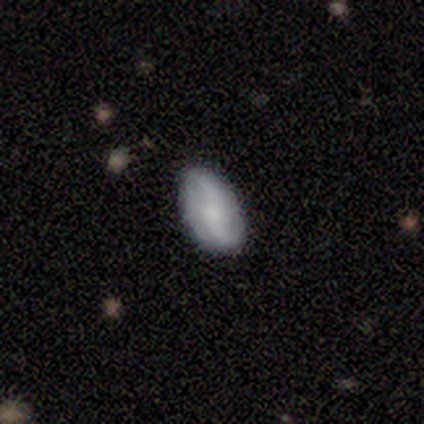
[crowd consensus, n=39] Smooth or featured? featured or disk (64%)
Edge-on disk? no (96%)
Bar? no (50%)
Spiral arms? yes (96%)
Spiral winding? loose (83%)
Spiral arm count? 2 (91%)
Bulge size? small (46%)
Merging? none (92%)